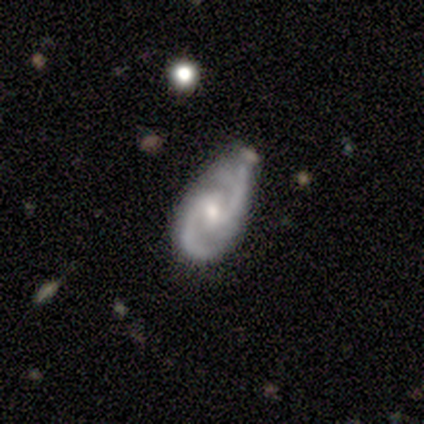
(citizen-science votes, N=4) This appears to be a featured or disk galaxy (100%) with a weak bar (50%, tied with no), 2 (100%) medium (75%) spiral arms (100%) and a small central bulge (50%). Merging: minor disturbance (75%).